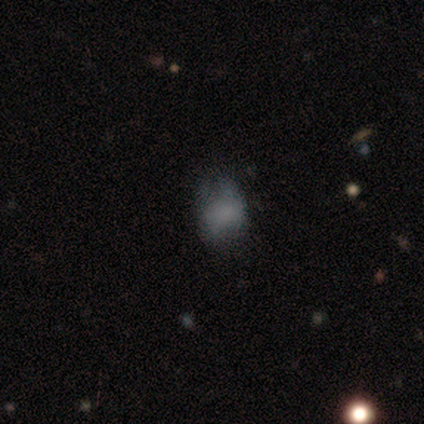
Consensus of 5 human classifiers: A smooth galaxy with no disk features (80%) that is round (50%, tied with in between). Merging: none (50%, tied with major disturbance).